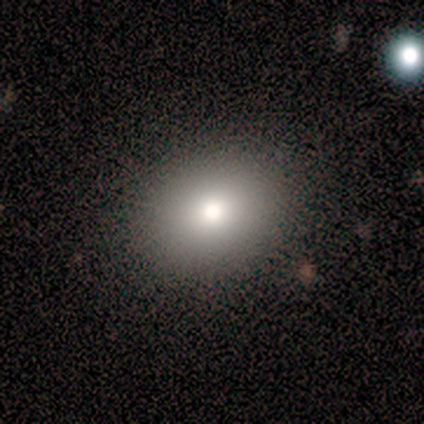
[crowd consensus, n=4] Overall: star or artifact (50%; smooth 25%).